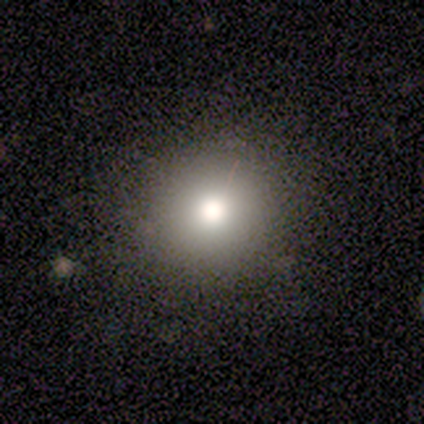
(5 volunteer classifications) Smooth or featured? smooth (80%)
How rounded? round (75%)
Merging? none (100%)